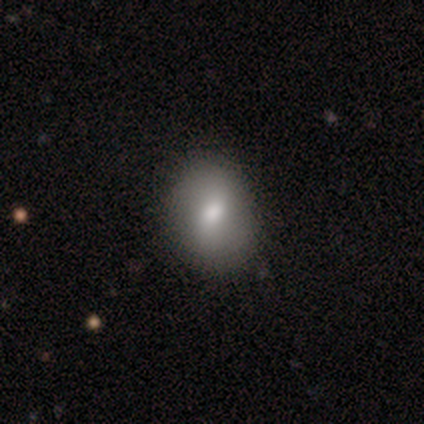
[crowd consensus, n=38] A smooth galaxy with no disk features (74%) that is in between round and cigar-shaped (64%).

Vote fractions:
- Smooth or featured? smooth: 74% / featured or disk: 18% / star or artifact: 8%
- How rounded? in between: 64% / round: 36% / cigar-shaped: 0%
- Merging? none: 71% / merger: 6% / minor disturbance: 3% / major disturbance: 0%